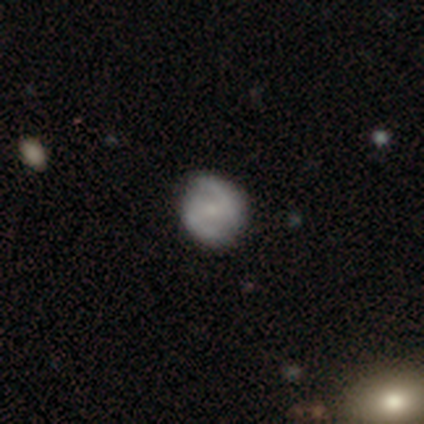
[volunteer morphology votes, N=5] Smooth or featured: smooth — 60% (featured or disk — 40%)
How rounded: round — 100%
Merging: none — 100%